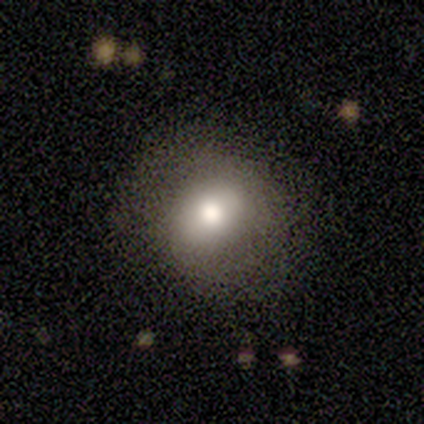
A smooth galaxy with no disk features (100%) that is round (80%).

Vote fractions:
- Smooth or featured? smooth: 100% / featured or disk: 0% / star or artifact: 0%
- How rounded? round: 80% / in between: 20% / cigar-shaped: 0%
- Merging? none: 60% / minor disturbance: 20% / major disturbance: 20% / merger: 0%